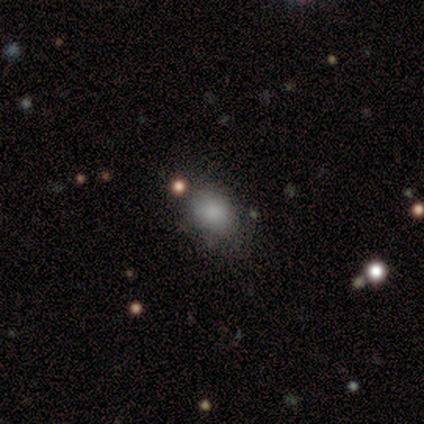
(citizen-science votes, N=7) Morphology: type=smooth (71%); roundness=in between (60%); merging=none (83%).